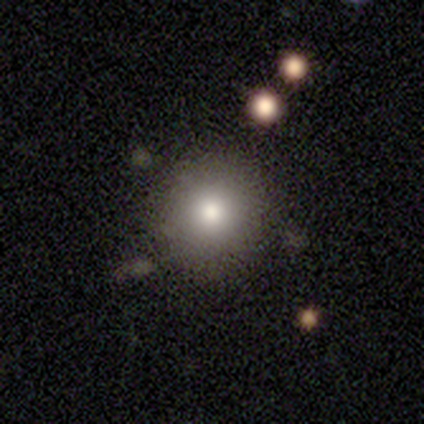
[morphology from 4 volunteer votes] Q: Smooth or featured?
A: smooth (100%)
Q: How rounded?
A: round (100%)
Q: Merging?
A: none (50%); runner-up: major disturbance (25%)